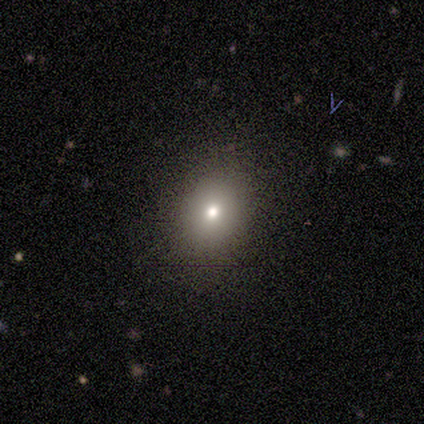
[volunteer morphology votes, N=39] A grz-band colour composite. It shows a smooth galaxy with no disk features (62%) that is round (62%). Merging: none (77%).